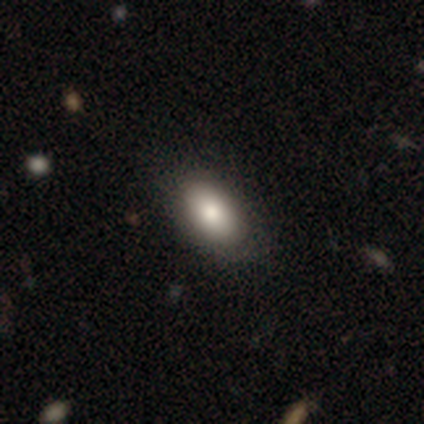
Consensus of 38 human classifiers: Volunteers were most divided on "merging": none: 75%, minor disturbance: 19%, major disturbance: 6%, merger: 0%. More confident: how rounded — in between (91%); smooth or featured — smooth (89%).